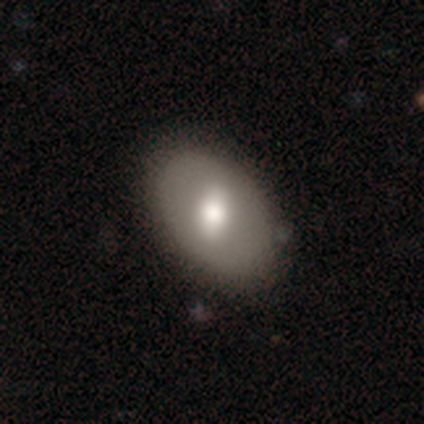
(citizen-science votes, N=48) A smooth galaxy with no disk features (62%) that is in between round and cigar-shaped (73%). Merging: none (77%).